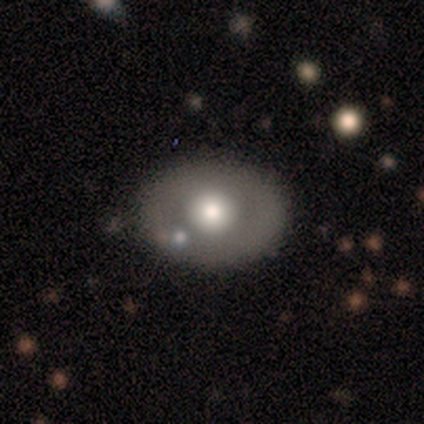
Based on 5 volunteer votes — smooth_or_featured: smooth (p=0.60) [alt: featured or disk p=0.40]
how_rounded: round (p=0.67) [alt: in between p=0.33]
merging: none (p=1.00)